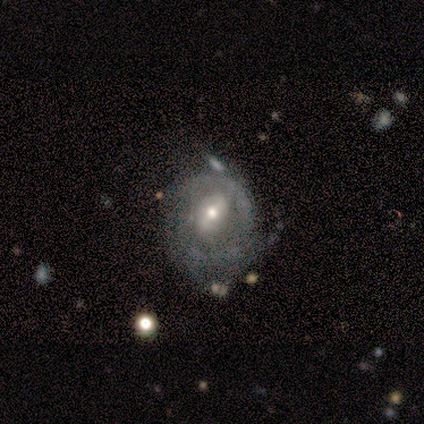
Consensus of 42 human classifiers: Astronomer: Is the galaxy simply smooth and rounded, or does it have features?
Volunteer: featured or disk — 81%.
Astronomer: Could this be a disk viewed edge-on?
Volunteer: no — 100%.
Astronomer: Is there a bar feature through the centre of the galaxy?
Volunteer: weak — 62%.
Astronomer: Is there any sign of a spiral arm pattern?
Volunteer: yes — 79%.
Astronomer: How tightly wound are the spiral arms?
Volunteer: medium — 44% (runner-up: tight, 30%).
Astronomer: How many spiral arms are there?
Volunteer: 2 — 33%, tied with can't tell at 33%.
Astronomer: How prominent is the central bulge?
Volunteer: moderate — 71%.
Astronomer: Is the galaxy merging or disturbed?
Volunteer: none — 41% (runner-up: minor disturbance, 28%).